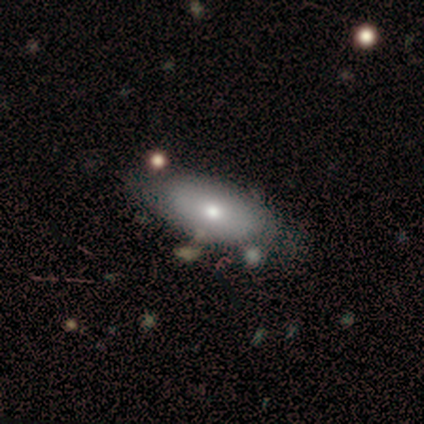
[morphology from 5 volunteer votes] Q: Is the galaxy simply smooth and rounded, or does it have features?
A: featured or disk — 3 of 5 (60%).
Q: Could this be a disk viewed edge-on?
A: no — 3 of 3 (100%).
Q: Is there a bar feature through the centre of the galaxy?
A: no — 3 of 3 (100%).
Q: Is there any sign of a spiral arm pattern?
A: no — 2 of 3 (67%).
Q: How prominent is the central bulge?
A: moderate — 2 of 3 (67%).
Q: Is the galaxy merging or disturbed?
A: none — 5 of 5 (100%).